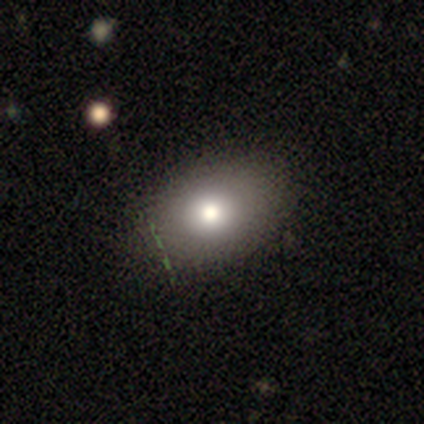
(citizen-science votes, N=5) smooth-or-featured: smooth: 80% | featured or disk: 20% | star or artifact: 0%
  how-rounded: in between: 100% | round: 0% | cigar-shaped: 0%
  merging: minor disturbance: 60% | none: 40% | major disturbance: 0% | merger: 0%